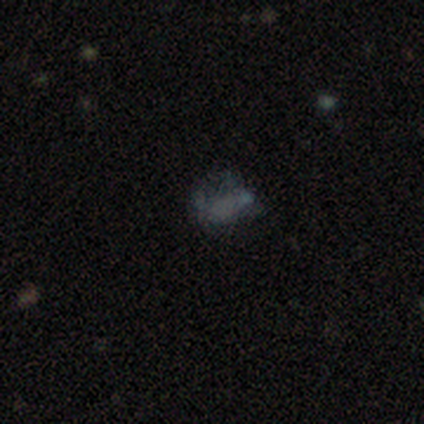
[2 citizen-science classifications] Smooth or featured? smooth (50%, tied with star or artifact)
How rounded? in between (100%)
Merging? merger (100%)